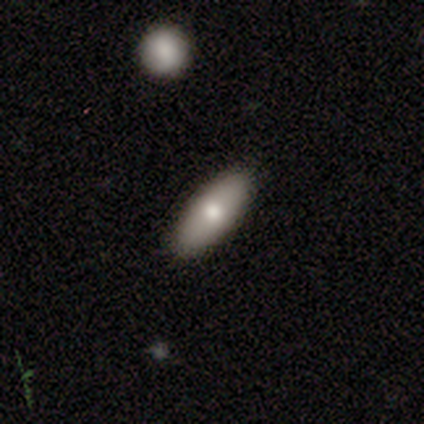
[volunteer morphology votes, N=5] Smooth or featured? 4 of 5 (80%) said smooth. How rounded? 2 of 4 (50%, tied with cigar-shaped) said in between. Merging? 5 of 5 (100%) said none.